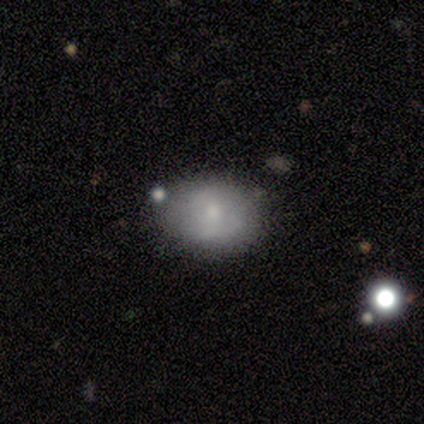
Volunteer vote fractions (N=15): smooth-or-featured: smooth: 67% | featured or disk: 20% | star or artifact: 13%
  how-rounded: round: 60% | in between: 40% | cigar-shaped: 0%
  merging: none: 69% | minor disturbance: 23% | major disturbance: 8% | merger: 0%